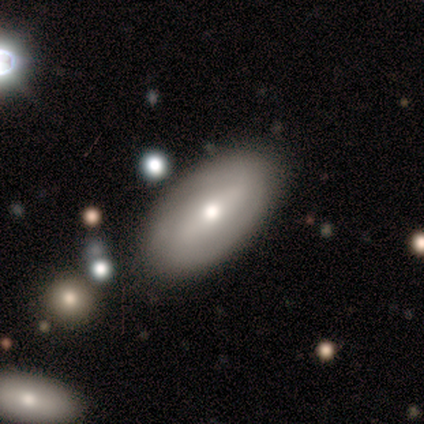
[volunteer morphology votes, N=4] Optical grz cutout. It shows a smooth galaxy with no disk features (75%) that is in between round and cigar-shaped (100%). Merging: none (100%).